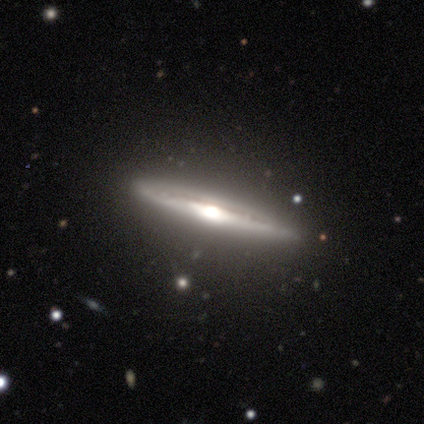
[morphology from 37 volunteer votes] This is clearly a featured or disk galaxy (84%). It is clearly viewed edge-on (97%). Edge-on bulge: clearly rounded (90%). Merging: clearly none (83%).